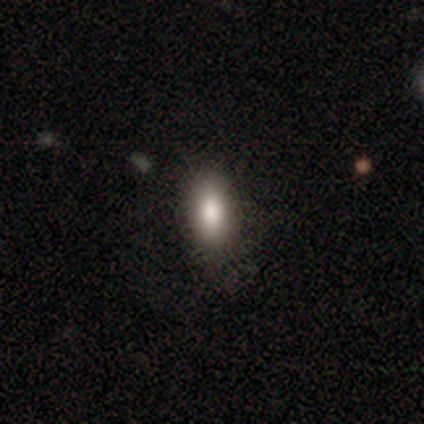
A smooth galaxy with no disk features (75%) that is in between round and cigar-shaped (77%). Merging: none (89%).